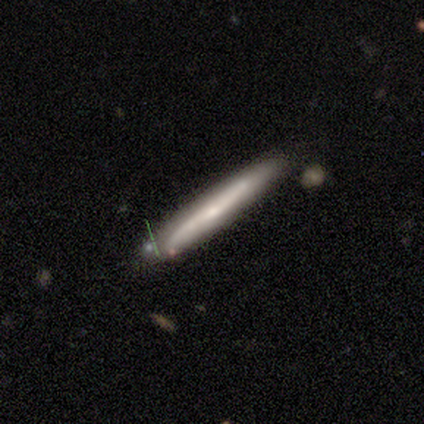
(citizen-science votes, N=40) Smooth or featured? featured or disk (52%)
Edge-on disk? yes (90%)
Edge-on bulge? rounded (63%)
Merging? none (82%)